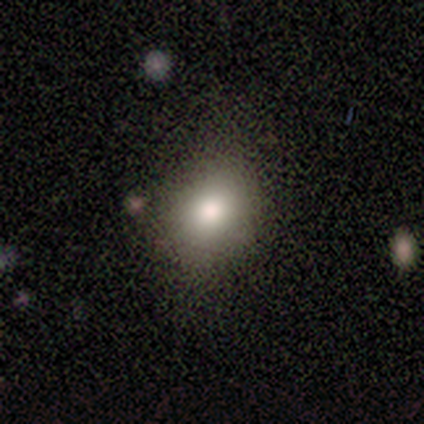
Smooth or featured? featured or disk (100%)
Edge-on disk? no (100%)
Bar? no (100%)
Spiral arms? no (100%)
Bulge size? dominant (50%, tied with moderate)
Merging? none (50%, tied with minor disturbance)